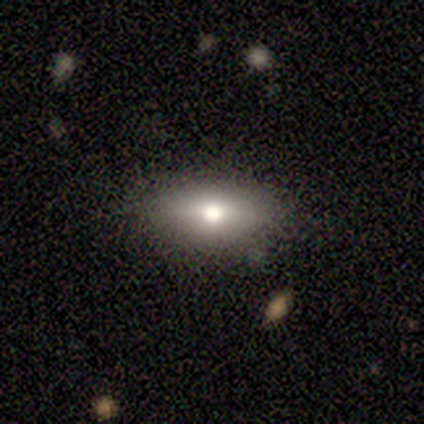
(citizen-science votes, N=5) Overall: smooth (40%, tied with featured or disk). How rounded: in between (100%). Merging: none (75%).